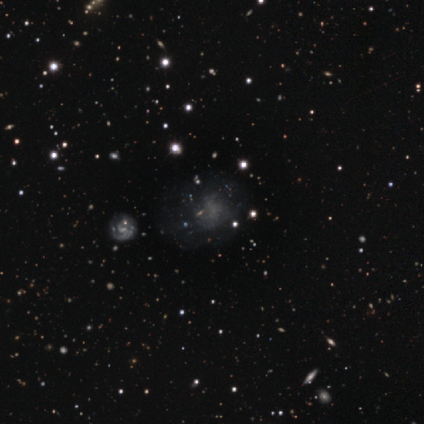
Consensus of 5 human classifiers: Q: Smooth or featured?
A: star or artifact (60%); runner-up: smooth (20%)